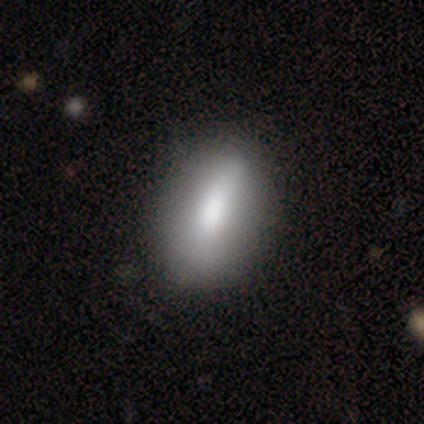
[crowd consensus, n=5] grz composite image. It shows a smooth galaxy with no disk features (40%, tied with featured or disk) that is round (50%, tied with in between). Merging: none (100%).